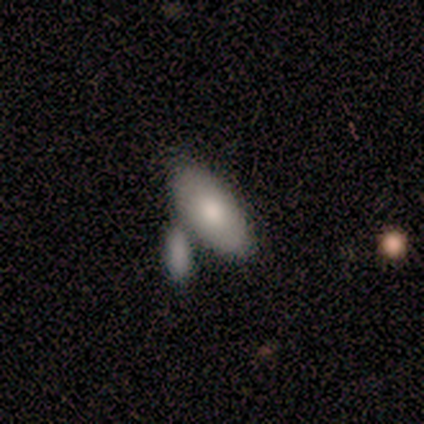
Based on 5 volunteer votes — Volunteers were most divided on "merging": merger: 60%, none: 40%, minor disturbance: 0%, major disturbance: 0%. More confident: how rounded — in between (100%); smooth or featured — smooth (80%).